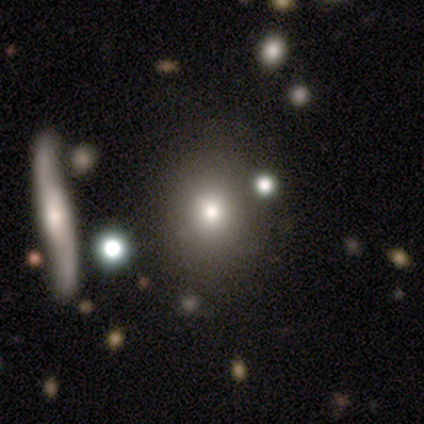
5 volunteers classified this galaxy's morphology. Smooth or featured? 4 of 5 (80%) said smooth. How rounded? 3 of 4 (75%) said round. Merging? 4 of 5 (80%) said none.